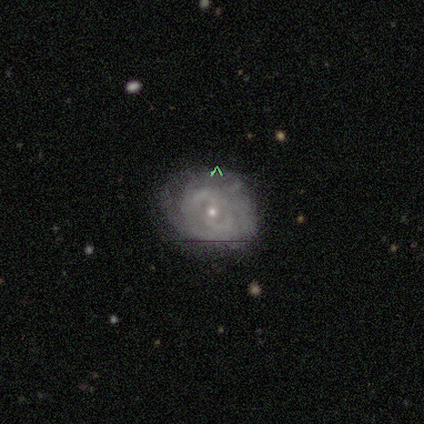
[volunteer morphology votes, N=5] Volunteers were most divided on "smooth or featured": featured or disk: 60%, star or artifact: 40%, smooth: 0%. More confident: edge-on disk — no (100%); spiral arms — yes (100%); bar — weak (67%); spiral winding — tight (67%); spiral arm count — 2 (67%); bulge size — small (67%); merging — minor disturbance (67%).